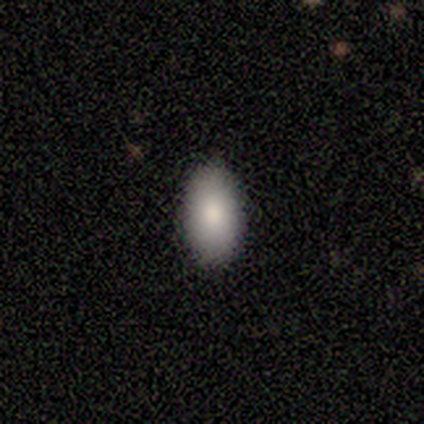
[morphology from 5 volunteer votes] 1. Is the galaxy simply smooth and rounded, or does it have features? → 100% smooth, 0% featured or disk, 0% star or artifact.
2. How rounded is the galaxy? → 100% in between, 0% round, 0% cigar-shaped.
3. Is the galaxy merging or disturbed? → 100% none, 0% minor disturbance, 0% major disturbance, 0% merger.